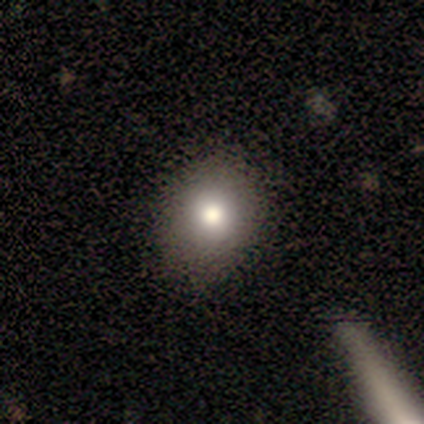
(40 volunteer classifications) Volunteers were most divided on "how rounded": round: 60%, in between: 40%, cigar-shaped: 0%. More confident: smooth or featured — smooth (75%); merging — none (61%).